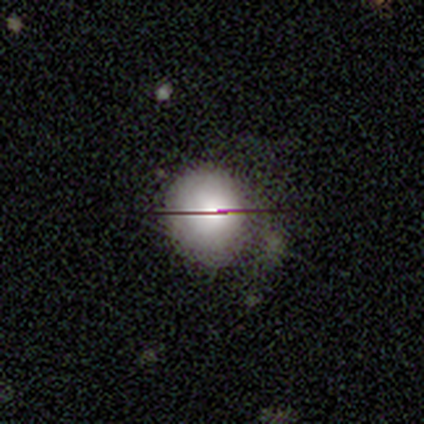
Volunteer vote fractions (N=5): smooth-or-featured: smooth: 60% | featured or disk: 20% | star or artifact: 20%
  how-rounded: round: 100% | in between: 0% | cigar-shaped: 0%
  merging: none: 75% | major disturbance: 25% | minor disturbance: 0% | merger: 0%